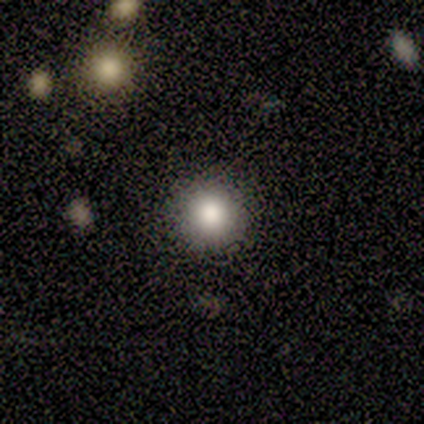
This is clearly a smooth galaxy (100%). How rounded: clearly round (100%). Merging: clearly none (100%).